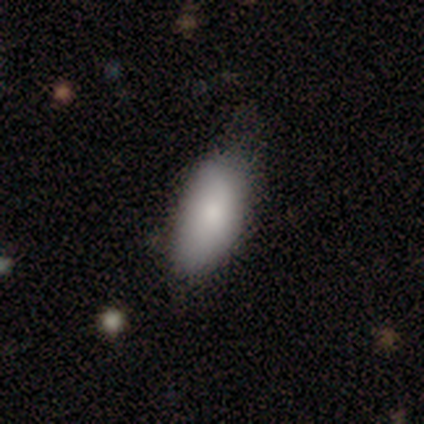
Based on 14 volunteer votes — Q: Smooth or featured?
A: smooth (93%); runner-up: featured or disk (7%)
Q: How rounded?
A: in between (100%)
Q: Merging?
A: none (64%); runner-up: minor disturbance (29%)